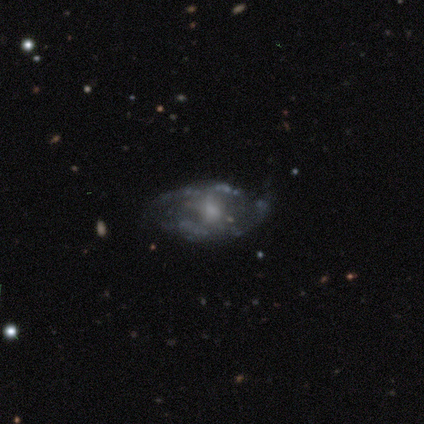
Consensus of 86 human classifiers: Volunteers were most divided on "bulge size": small: 48%, moderate: 34%, none: 14%, dominant: 2%, large: 2%. More confident: edge-on disk — no (91%); bar — no (86%); spiral arms — no (76%); smooth or featured — featured or disk (74%); merging — none (62%).